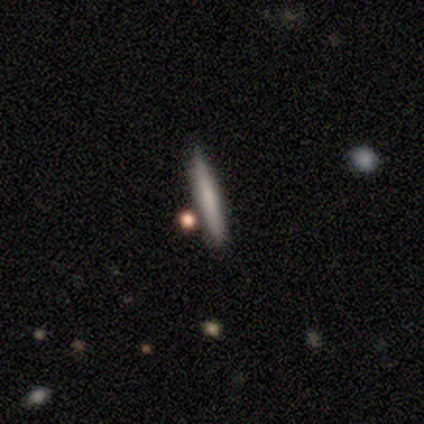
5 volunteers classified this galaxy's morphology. Smooth or featured?
  - smooth: 80% *
  - featured or disk: 20%
  - star or artifact: 0%
How rounded?
  - cigar-shaped: 100% *
  - round: 0%
  - in between: 0%
Merging?
  - none: 60% *
  - minor disturbance: 20%
  - merger: 20%
  - major disturbance: 0%